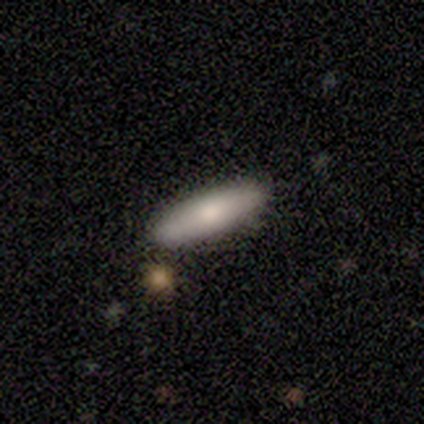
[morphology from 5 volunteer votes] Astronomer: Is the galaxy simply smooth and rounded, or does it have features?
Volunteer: smooth — 80%.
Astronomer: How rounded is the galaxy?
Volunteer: in between — 50%, tied with cigar-shaped at 50%.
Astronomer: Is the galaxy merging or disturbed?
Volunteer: none — 80%.